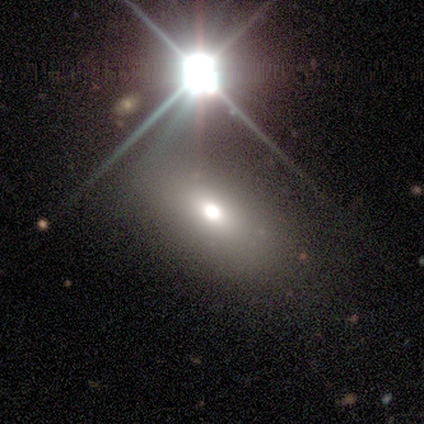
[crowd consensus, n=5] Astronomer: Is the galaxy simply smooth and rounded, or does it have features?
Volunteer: smooth — 80%.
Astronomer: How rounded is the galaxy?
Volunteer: in between — 75%.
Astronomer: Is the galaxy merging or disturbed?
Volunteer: none — 75%.